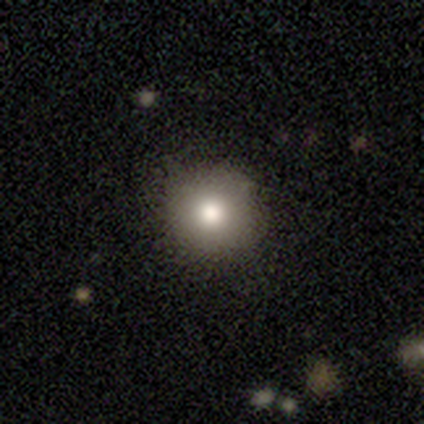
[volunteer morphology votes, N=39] This is clearly a smooth galaxy (87%). How rounded: clearly round (97%). Merging: clearly none (92%).